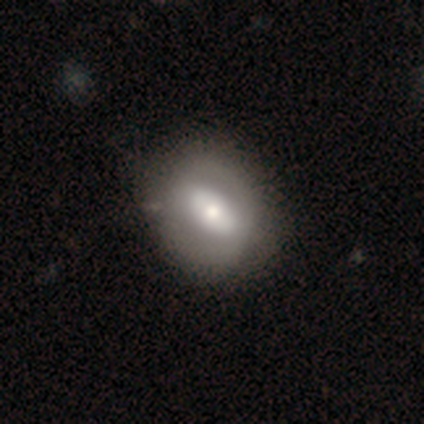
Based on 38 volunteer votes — Overall: featured or disk (47%; smooth 45%). Edge-on disk: no (100%). Bar: no (61%; strong 28%). Spiral arms: no (83%). Bulge size: moderate (61%; small 22%). Merging: none (46%; minor disturbance 9%).